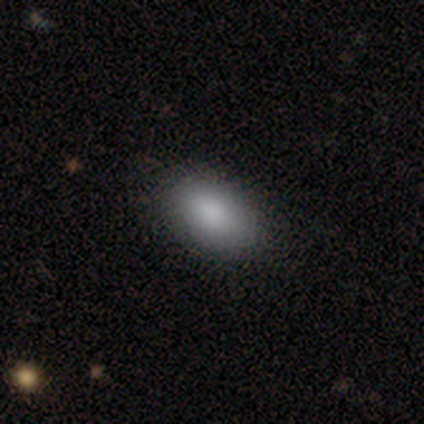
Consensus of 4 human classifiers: Smooth or featured: smooth — 100%
How rounded: in between — 100%
Merging: none — 75% (minor disturbance — 25%)